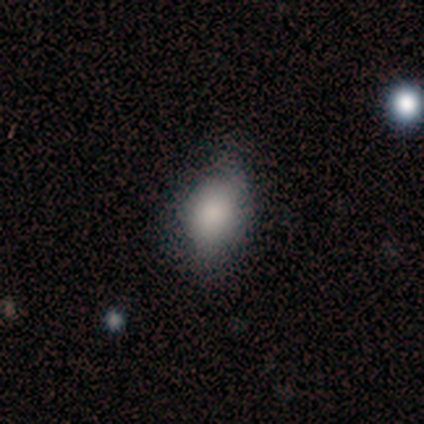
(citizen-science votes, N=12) This is clearly a smooth galaxy (83%). How rounded: clearly in between (90%). Merging: possibly none (58%).